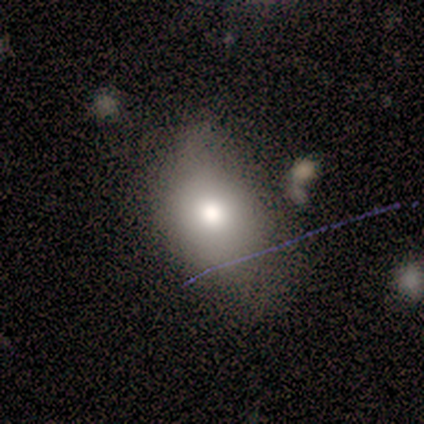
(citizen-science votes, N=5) A smooth galaxy with no disk features (80%) that is in between round and cigar-shaped (75%).

Vote fractions:
- Smooth or featured? smooth: 80% / star or artifact: 20% / featured or disk: 0%
- How rounded? in between: 75% / round: 25% / cigar-shaped: 0%
- Merging? none: 50% (tied) / minor disturbance: 50% (tied) / major disturbance: 0% / merger: 0%